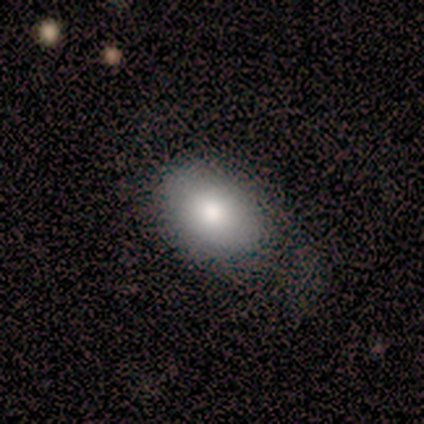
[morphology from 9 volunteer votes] This appears to be a smooth galaxy with no disk features (89%) that is in between round and cigar-shaped (62%). Merging: none (56%).